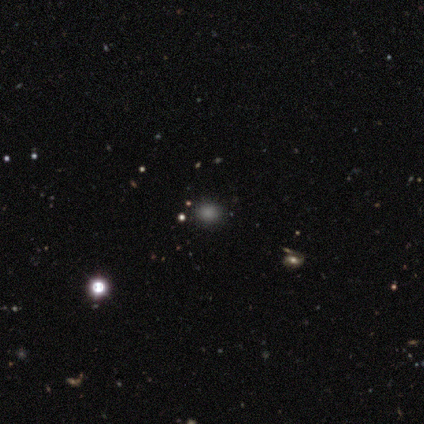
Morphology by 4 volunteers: Smooth or featured: smooth — 100%
How rounded: round — 75% (in between — 25%)
Merging: none — 100%